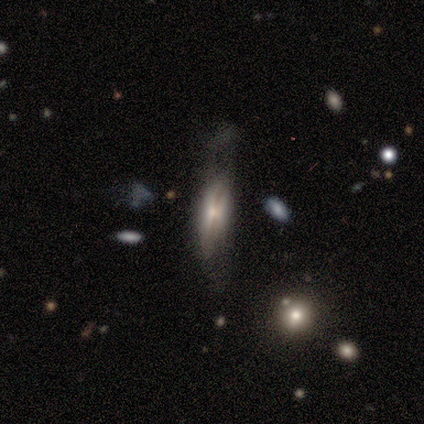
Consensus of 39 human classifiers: smooth_or_featured: featured or disk (p=0.64) [alt: smooth p=0.23]
disk_edge_on: yes (p=0.76) [alt: no p=0.24]
edge_on_bulge: rounded (p=0.63) [alt: none p=0.21]
merging: none (p=0.35) [alt: major disturbance p=0.32]